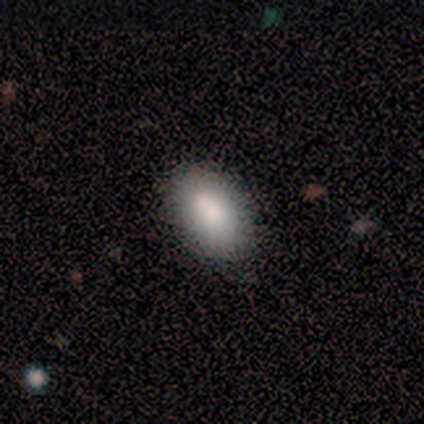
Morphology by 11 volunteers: A smooth galaxy with no disk features (91%) that is in between round and cigar-shaped (100%).

Vote fractions:
- Smooth or featured? smooth: 91% / featured or disk: 9% / star or artifact: 0%
- How rounded? in between: 100% / round: 0% / cigar-shaped: 0%
- Merging? none: 73% / minor disturbance: 27% / major disturbance: 0% / merger: 0%